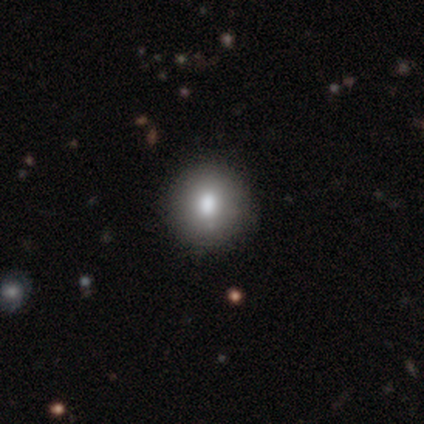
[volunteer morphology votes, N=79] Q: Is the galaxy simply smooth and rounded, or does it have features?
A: smooth — 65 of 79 (82%).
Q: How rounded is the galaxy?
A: round — 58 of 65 (89%).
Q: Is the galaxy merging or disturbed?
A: none — 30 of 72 (42%).